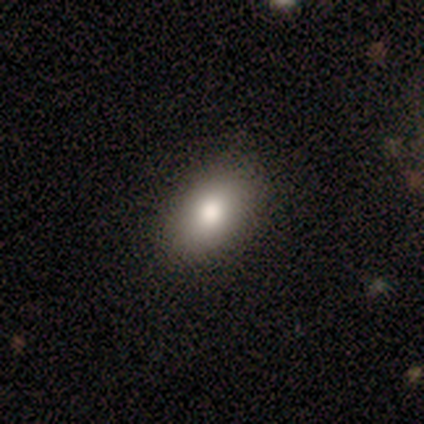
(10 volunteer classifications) smooth_or_featured: smooth (p=0.80) [alt: featured or disk p=0.20]
how_rounded: in between (p=0.75) [alt: round p=0.25]
merging: none (p=1.00)